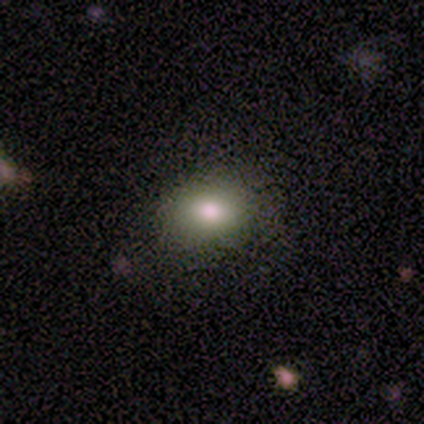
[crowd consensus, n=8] Overall: smooth (75%). How rounded: in between (67%; round 33%). Merging: none (83%).